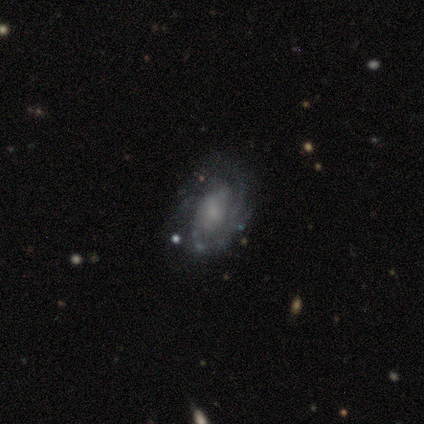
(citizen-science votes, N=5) This appears to be a featured or disk galaxy (100%) with no bar (80%), medium (50%) spiral arms (80%) and a small central bulge (80%). Merging: none (80%).